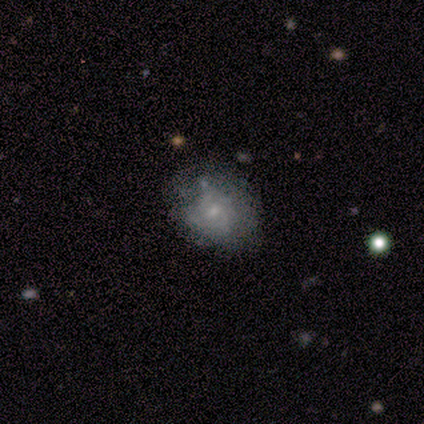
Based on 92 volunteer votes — Overall: featured or disk (65%; smooth 27%). Edge-on disk: no (100%). Bar: no (67%; weak 33%). Spiral arms: yes (58%; no 42%). Spiral arm count: can't tell (77%). Spiral winding: tight (57%; medium 31%). Bulge size: small (75%). Merging: none (56%; minor disturbance 33%).